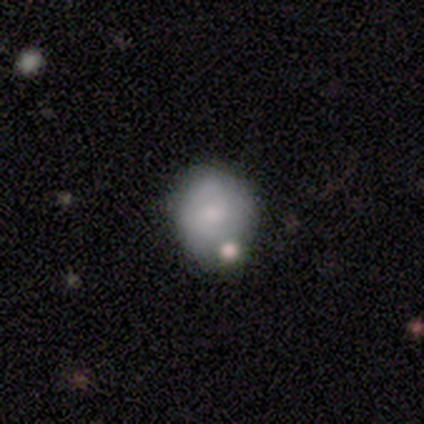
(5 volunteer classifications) smooth-or-featured: smooth: 100% | featured or disk: 0% | star or artifact: 0%
  how-rounded: round: 80% | in between: 20% | cigar-shaped: 0%
  merging: none: 40% (tied) | minor disturbance: 40% (tied) | merger: 20% | major disturbance: 0%